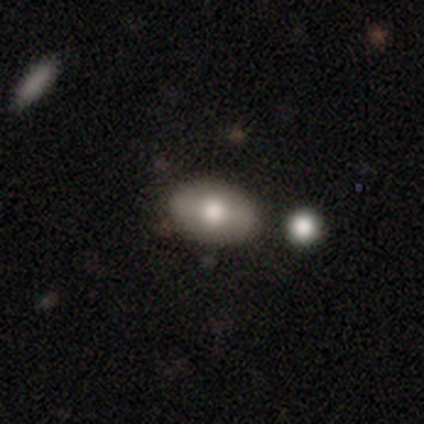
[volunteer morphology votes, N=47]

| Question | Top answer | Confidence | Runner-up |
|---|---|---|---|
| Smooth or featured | smooth | 77% | featured or disk (15%) |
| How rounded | in between | 78% | round (22%) |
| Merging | none | 84% | minor disturbance (14%) |